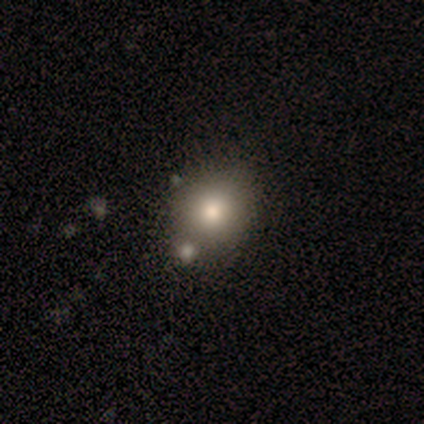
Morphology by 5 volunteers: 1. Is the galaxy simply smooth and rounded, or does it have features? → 80% smooth, 20% star or artifact, 0% featured or disk.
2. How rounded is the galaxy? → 100% round, 0% in between, 0% cigar-shaped.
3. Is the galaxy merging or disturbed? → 75% none, 25% minor disturbance, 0% major disturbance, 0% merger.